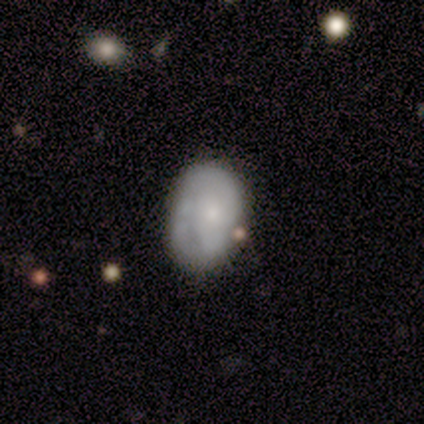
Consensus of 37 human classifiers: This is likely a smooth galaxy (62%). How rounded: clearly in between (87%). Merging: likely none (64%).